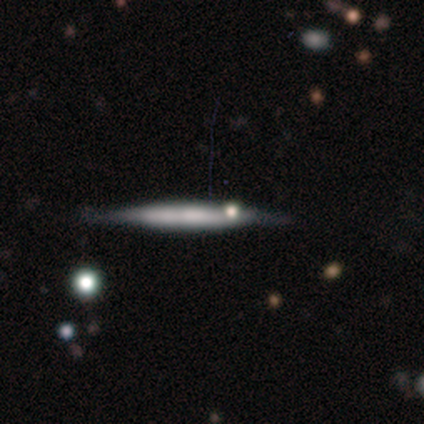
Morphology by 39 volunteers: A featured or disk galaxy (54%) viewed edge-on (95%) with no central bulge (55%). Merging: none (59%).